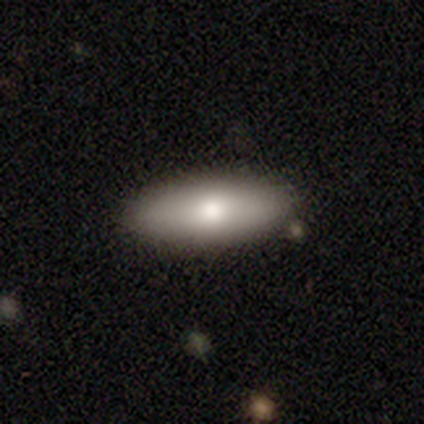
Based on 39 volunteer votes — Smooth or featured? smooth (74%)
How rounded? in between (66%)
Merging? none (95%)